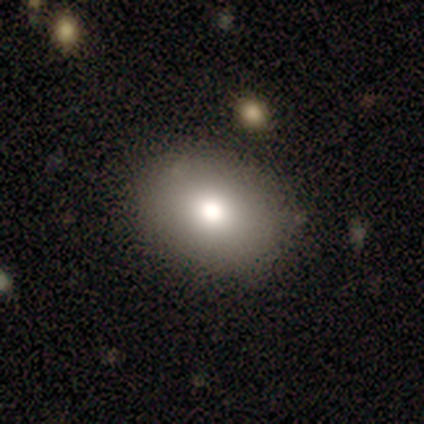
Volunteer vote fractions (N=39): This is possibly a smooth galaxy (56%). How rounded: likely in between (64%). Merging: clearly none (88%).